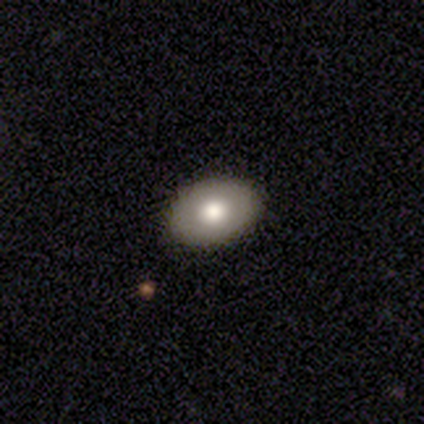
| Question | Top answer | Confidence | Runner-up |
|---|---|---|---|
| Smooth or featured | smooth | 67% | featured or disk (28%) |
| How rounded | in between | 85% | round (15%) |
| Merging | none | 84% | minor disturbance (8%) |